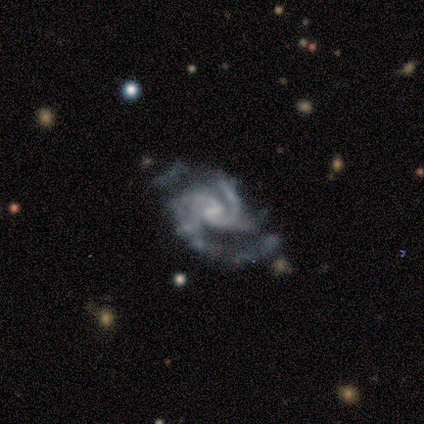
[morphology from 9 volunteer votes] Smooth or featured? 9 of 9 (100%) said featured or disk. Edge-on disk? 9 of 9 (100%) said no. Bar? 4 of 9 (44%) said strong. Spiral arms? 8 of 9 (89%) said yes. Spiral winding? 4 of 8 (50%) said medium. Spiral arm count? 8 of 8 (100%) said 2. Bulge size? 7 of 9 (78%) said none. Merging? 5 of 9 (56%) said none.